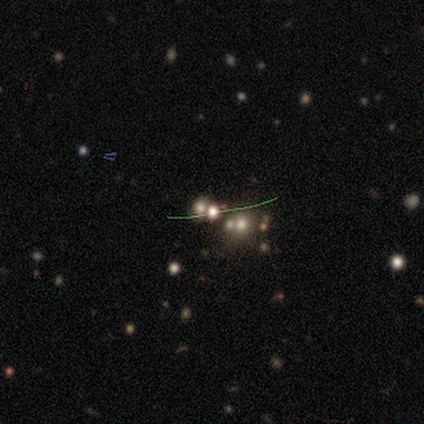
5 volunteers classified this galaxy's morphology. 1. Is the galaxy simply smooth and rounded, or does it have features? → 40% featured or disk (tied), 40% star or artifact (tied), 20% smooth.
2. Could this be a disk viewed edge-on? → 100% no, 0% yes.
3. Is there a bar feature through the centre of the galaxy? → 100% no, 0% strong, 0% weak.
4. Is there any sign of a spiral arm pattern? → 100% no, 0% yes.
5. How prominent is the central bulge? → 100% none, 0% dominant, 0% large, 0% moderate, 0% small.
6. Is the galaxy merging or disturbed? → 100% merger, 0% none, 0% minor disturbance, 0% major disturbance.